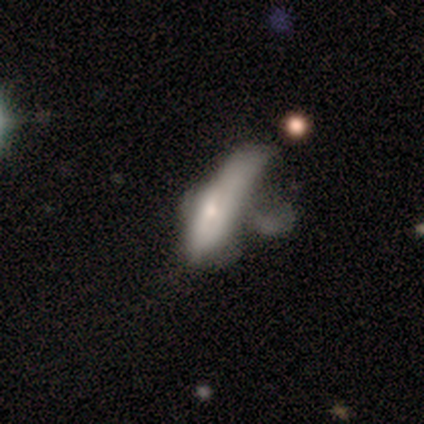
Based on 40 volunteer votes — Smooth or featured? smooth (60%)
How rounded? in between (50%, tied with cigar-shaped)
Merging? major disturbance (46%)